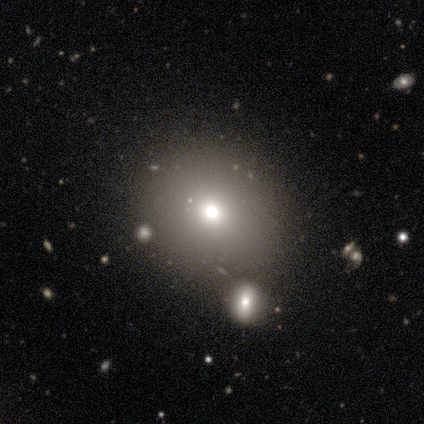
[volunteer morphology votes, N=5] Q: Smooth or featured?
A: smooth (100%)
Q: How rounded?
A: round (100%)
Q: Merging?
A: merger (60%); runner-up: none (40%)